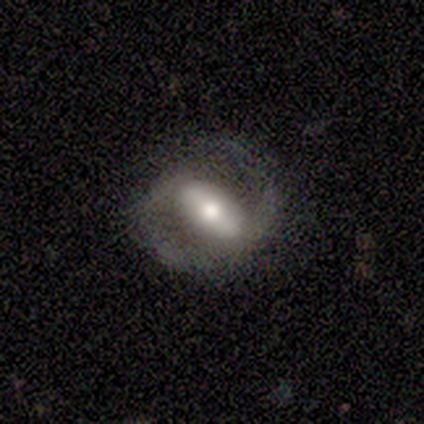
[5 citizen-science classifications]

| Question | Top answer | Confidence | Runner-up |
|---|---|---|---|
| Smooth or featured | featured or disk | 80% | smooth (20%) |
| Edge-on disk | no | 100% | — |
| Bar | strong | 75% | no (25%) |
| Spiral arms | yes | 100% | — |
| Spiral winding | medium | 50% | tight (25%) |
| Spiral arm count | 2 | 100% | — |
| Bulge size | moderate | 100% | — |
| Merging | none | 80% | merger (20%) |